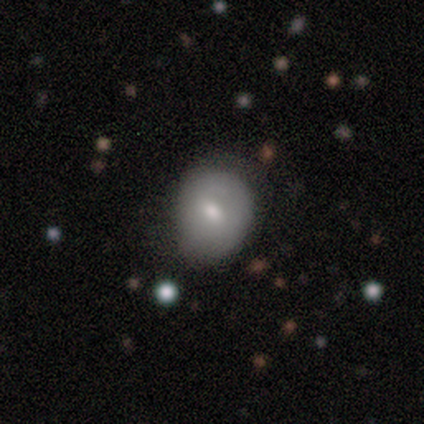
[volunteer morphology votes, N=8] smooth_or_featured: smooth (p=1.00)
how_rounded: round (p=0.62) [alt: in between p=0.38]
merging: minor disturbance (p=0.50) [alt: none p=0.38]